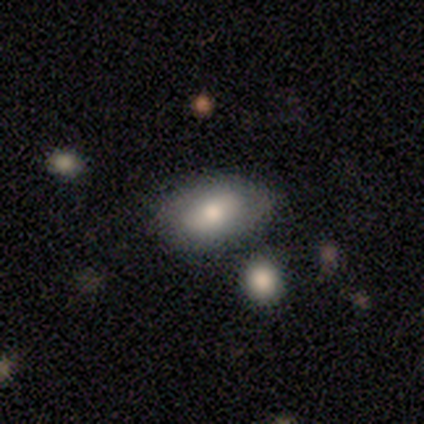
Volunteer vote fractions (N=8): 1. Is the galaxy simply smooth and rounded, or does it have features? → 88% smooth, 12% star or artifact, 0% featured or disk.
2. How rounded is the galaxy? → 86% in between, 14% cigar-shaped, 0% round.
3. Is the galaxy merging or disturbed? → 86% none, 14% merger, 0% minor disturbance, 0% major disturbance.